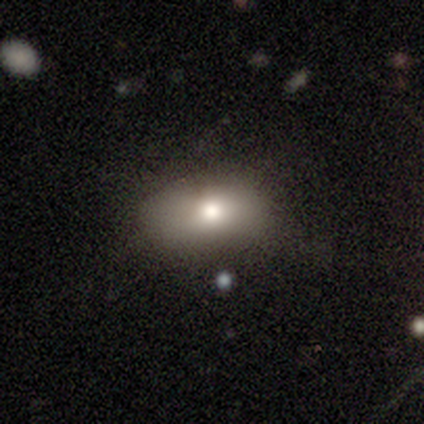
Smooth or featured?
  - smooth: 50% *
  - featured or disk: 25%
  - star or artifact: 25%
How rounded?
  - in between: 100% *
  - round: 0%
  - cigar-shaped: 0%
Merging?
  - none: 50% * (tied)
  - minor disturbance: 50% * (tied)
  - major disturbance: 0%
  - merger: 0%